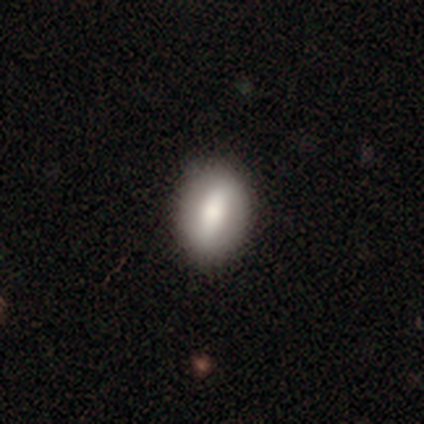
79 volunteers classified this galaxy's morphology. smooth_or_featured: smooth (p=0.67) [alt: featured or disk p=0.28]
how_rounded: in between (p=0.74) [alt: round p=0.26]
merging: none (p=0.45) [alt: minor disturbance p=0.11]